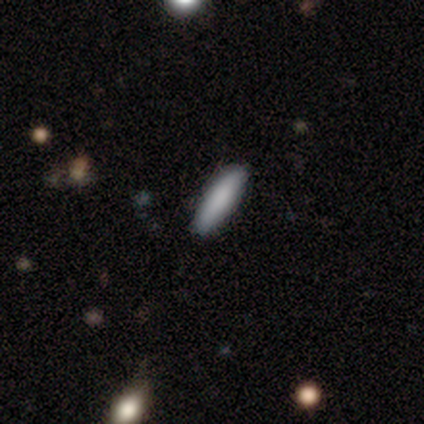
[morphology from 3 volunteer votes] type=smooth (100%); roundness=in between (100%); merging=none (100%).